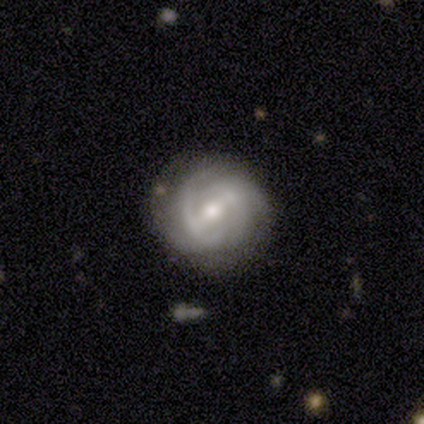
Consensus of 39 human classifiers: A featured or disk galaxy (77%) with a weak bar (54%), tight (58%) spiral arms (93%) and a moderate central bulge (64%).

Vote fractions:
- Smooth or featured? featured or disk: 77% / smooth: 18% / star or artifact: 5%
- Edge-on disk? no: 93% / yes: 7%
- Bar? weak: 54% / no: 25% / strong: 21%
- Spiral arms? yes: 93% / no: 7%
- Spiral winding? tight: 58% / medium: 35% / loose: 8%
- Spiral arm count? can't tell: 42% / 2: 31% / 4: 15% / 3: 12% / 1: 0% / more than 4: 0%
- Bulge size? moderate: 64% / small: 32% / large: 4% / dominant: 0% / none: 0%
- Merging? none: 68% / minor disturbance: 19% / major disturbance: 8% / merger: 5%